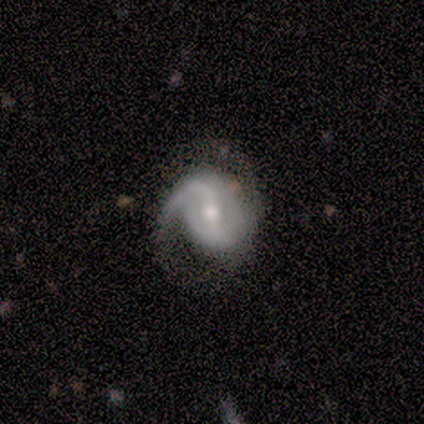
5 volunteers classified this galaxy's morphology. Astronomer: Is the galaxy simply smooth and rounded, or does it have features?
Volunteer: featured or disk — 100%.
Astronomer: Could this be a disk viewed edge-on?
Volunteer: no — 100%.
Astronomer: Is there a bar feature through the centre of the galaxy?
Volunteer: weak — 80%.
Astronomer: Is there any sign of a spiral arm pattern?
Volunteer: yes — 100%.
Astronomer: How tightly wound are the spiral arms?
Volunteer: medium — 60%.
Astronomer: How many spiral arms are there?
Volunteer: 2 — 80%.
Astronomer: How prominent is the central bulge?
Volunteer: moderate — 60% (runner-up: small, 40%).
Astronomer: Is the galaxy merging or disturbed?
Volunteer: none — 40%, tied with minor disturbance at 40%.